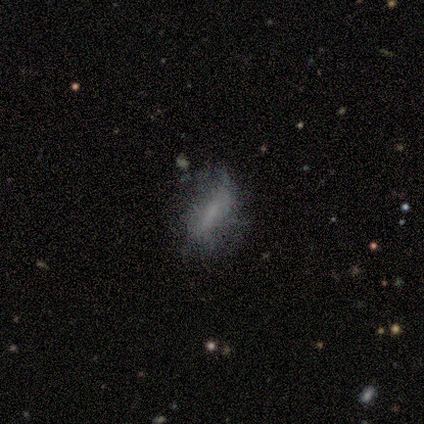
Overall: smooth (80%). How rounded: in between (75%). Merging: none (50%; minor disturbance 25%).